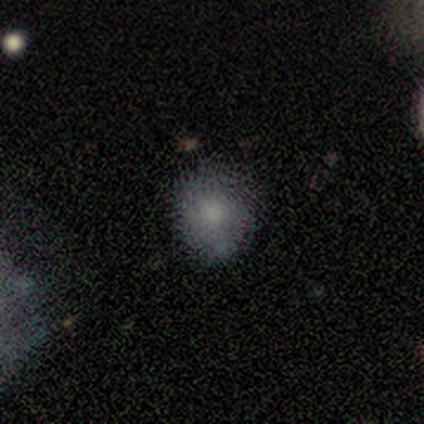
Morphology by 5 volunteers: Volunteers were most divided on "how rounded": round: 60%, in between: 40%, cigar-shaped: 0%. More confident: smooth or featured — smooth (100%); merging — none (100%).